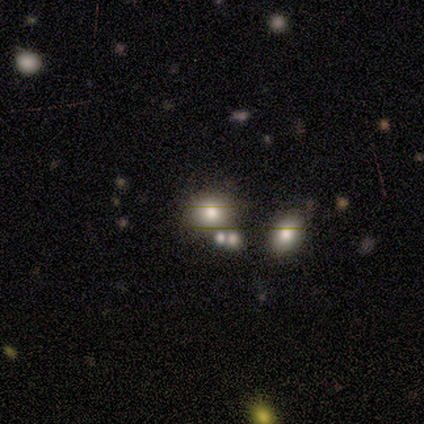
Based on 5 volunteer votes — This appears to be a smooth galaxy with no disk features (40%, tied with star or artifact) that is round (50%, tied with in between). Merging: merger (67%).